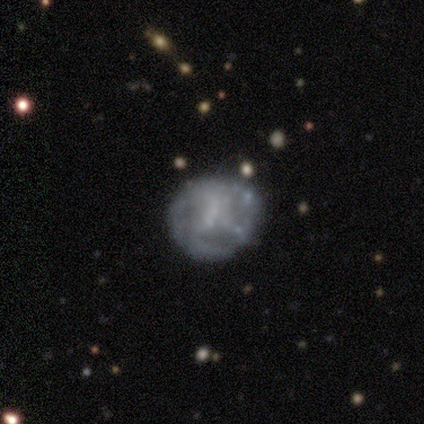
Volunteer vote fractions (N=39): smooth_or_featured: featured or disk (p=0.64) [alt: smooth p=0.26]
disk_edge_on: no (p=1.00)
bar: no (p=0.72) [alt: strong p=0.20]
has_spiral_arms: no (p=0.60) [alt: yes p=0.40]
bulge_size: none (p=0.64) [alt: small p=0.20]
merging: none (p=0.63) [alt: minor disturbance p=0.26]